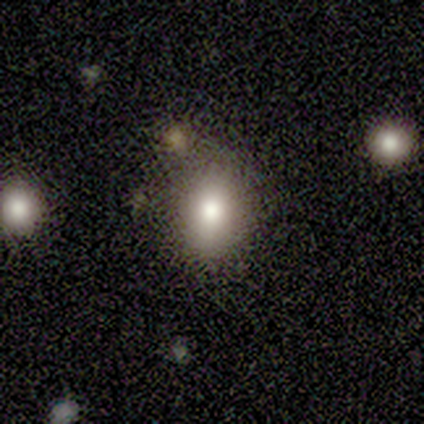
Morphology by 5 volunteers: smooth-or-featured: smooth: 100% | featured or disk: 0% | star or artifact: 0%
  how-rounded: in between: 60% | round: 40% | cigar-shaped: 0%
  merging: none: 60% | minor disturbance: 40% | major disturbance: 0% | merger: 0%